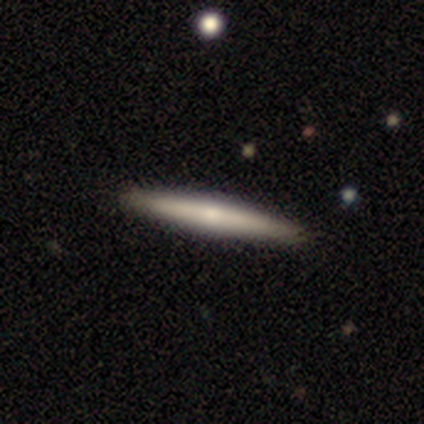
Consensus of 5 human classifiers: Smooth or featured? featured or disk (100%)
Edge-on disk? yes (100%)
Edge-on bulge? rounded (80%)
Merging? none (100%)